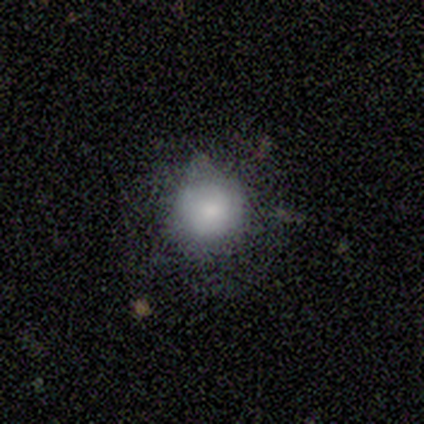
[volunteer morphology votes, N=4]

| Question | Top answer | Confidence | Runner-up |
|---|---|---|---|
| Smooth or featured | smooth | 100% | — |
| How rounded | round | 75% | in between (25%) |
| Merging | none | 100% | — |